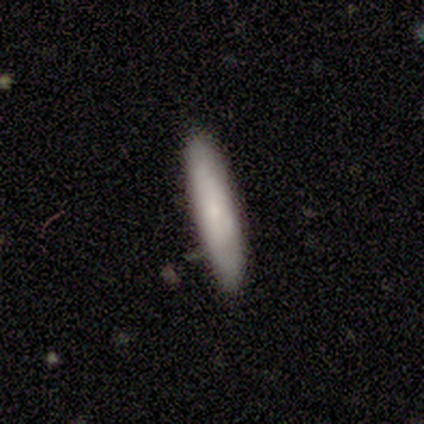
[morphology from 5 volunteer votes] Smooth or featured? smooth (100%)
How rounded? cigar-shaped (60%)
Merging? none (100%)